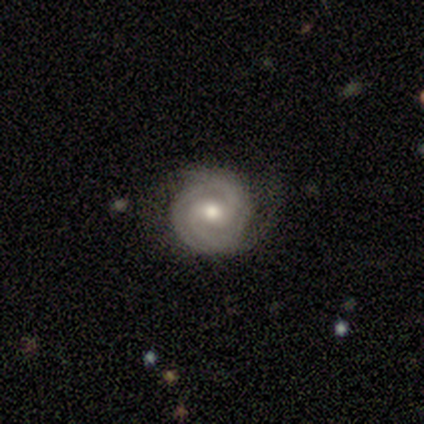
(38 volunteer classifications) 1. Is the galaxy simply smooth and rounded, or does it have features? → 92% featured or disk, 5% smooth, 3% star or artifact.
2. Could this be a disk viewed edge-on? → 97% no, 3% yes.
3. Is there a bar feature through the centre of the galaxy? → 50% weak, 47% no, 3% strong.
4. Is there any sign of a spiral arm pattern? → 97% yes, 3% no.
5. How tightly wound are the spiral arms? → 91% tight, 9% medium, 0% loose.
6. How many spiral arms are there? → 55% 2, 24% 3, 15% can't tell, 6% 4, 0% 1, 0% more than 4.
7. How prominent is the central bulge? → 59% moderate, 29% small, 12% large, 0% dominant, 0% none.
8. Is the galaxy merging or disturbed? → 78% none, 16% minor disturbance, 5% major disturbance, 0% merger.